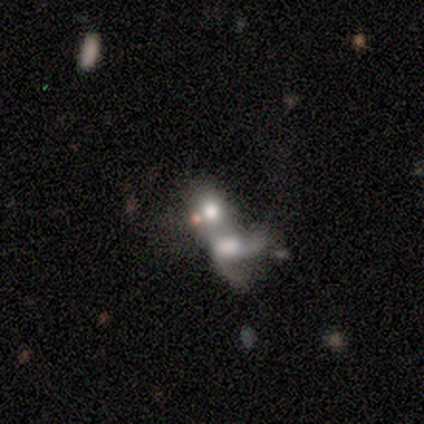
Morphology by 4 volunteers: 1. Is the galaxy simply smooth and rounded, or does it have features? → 75% smooth, 25% star or artifact, 0% featured or disk.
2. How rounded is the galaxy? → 67% round, 33% in between, 0% cigar-shaped.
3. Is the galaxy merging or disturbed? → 100% merger, 0% none, 0% minor disturbance, 0% major disturbance.